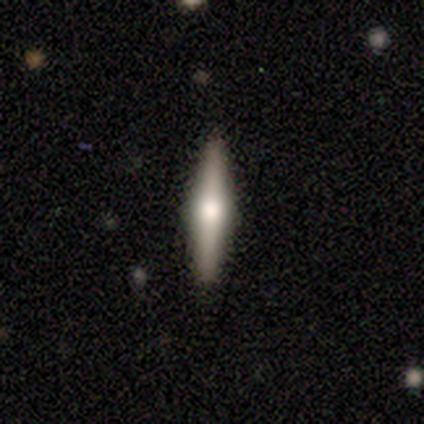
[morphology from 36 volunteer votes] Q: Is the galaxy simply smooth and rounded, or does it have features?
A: featured or disk — 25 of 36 (69%).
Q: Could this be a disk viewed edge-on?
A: yes — 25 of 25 (100%).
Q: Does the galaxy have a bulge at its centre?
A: rounded — 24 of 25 (96%).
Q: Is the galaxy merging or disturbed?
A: none — 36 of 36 (100%).